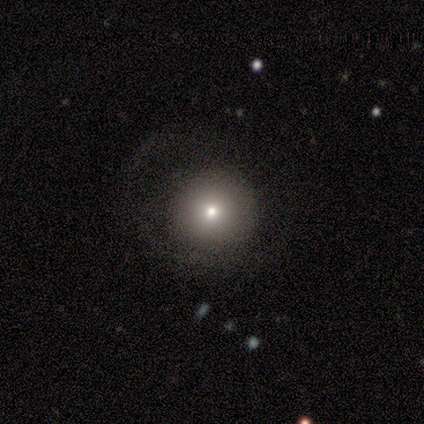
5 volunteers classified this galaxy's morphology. Smooth or featured? smooth (60%)
How rounded? round (100%)
Merging? none (67%)